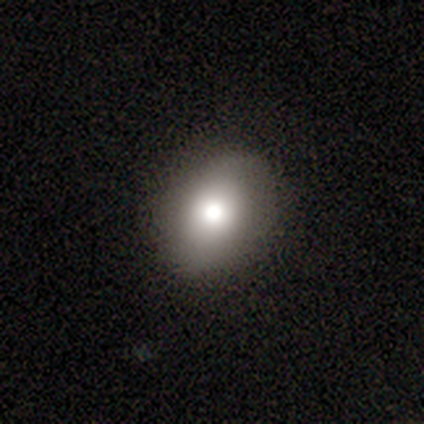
smooth 80%, star or artifact 20%, featured or disk 0%. Down the decision tree: how rounded — in between (75%); merging — none (75%).